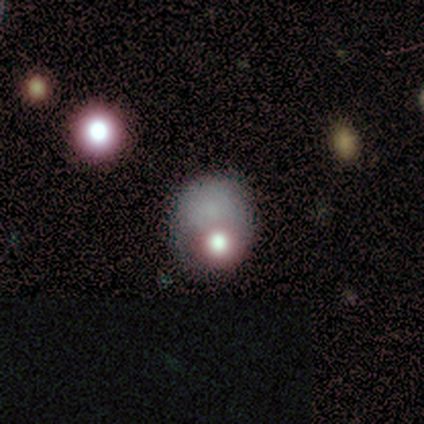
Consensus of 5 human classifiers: smooth_or_featured: smooth (p=0.80) [alt: star or artifact p=0.20]
how_rounded: round (p=1.00)
merging: merger (p=0.50) [alt: none p=0.25]